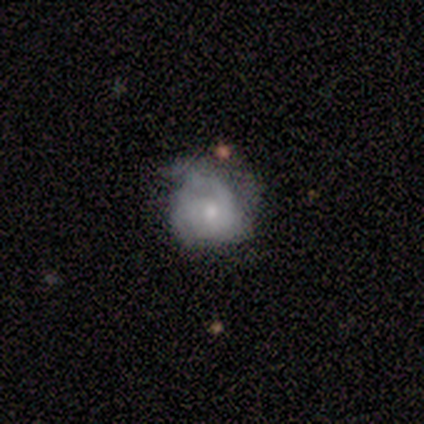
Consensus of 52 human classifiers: Volunteers were most divided on "bulge size": small: 46%, moderate: 43%, large: 5%, none: 5%, dominant: 0%. Remaining: edge-on disk — no (100%); bar — no (95%); spiral arms — yes (89%); smooth or featured — featured or disk (71%); spiral winding — tight (55%); merging — minor disturbance (44%); spiral arm count — 2 (36%).